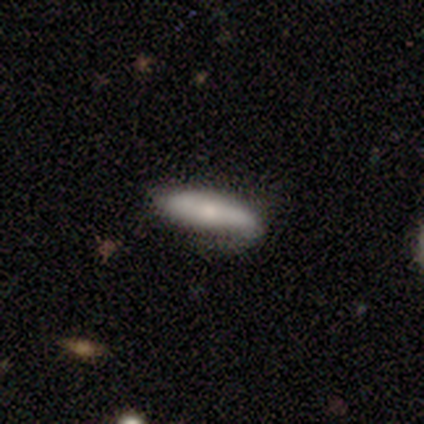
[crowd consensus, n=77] A smooth galaxy with no disk features (66%) that is in between round and cigar-shaped (51%). Merging: none (30%).